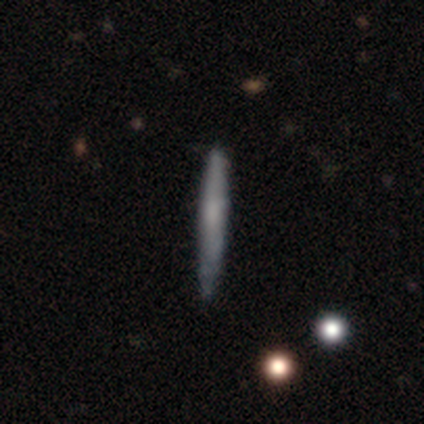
Smooth or featured? smooth (60%)
How rounded? cigar-shaped (100%)
Merging? none (60%)